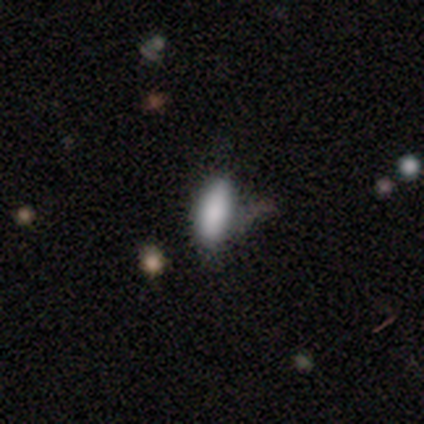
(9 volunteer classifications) A smooth galaxy with no disk features (78%) that is in between round and cigar-shaped (71%).

Vote fractions:
- Smooth or featured? smooth: 78% / star or artifact: 22% / featured or disk: 0%
- How rounded? in between: 71% / cigar-shaped: 29% / round: 0%
- Merging? minor disturbance: 43% / none: 29% / major disturbance: 29% / merger: 0%